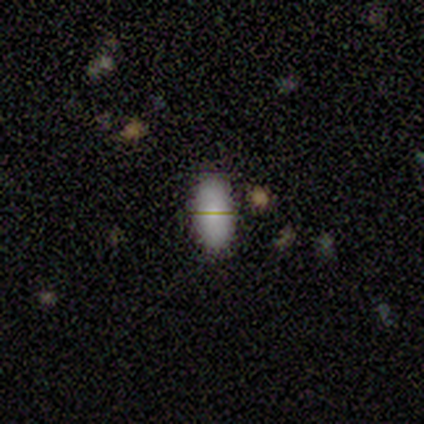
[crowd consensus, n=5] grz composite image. It shows a smooth galaxy with no disk features (80%) that is in between round and cigar-shaped (100%). Merging: none (80%).